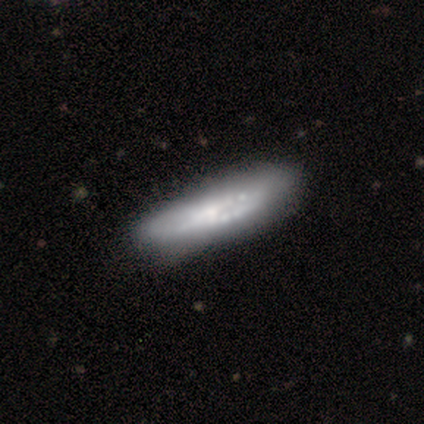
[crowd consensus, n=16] This is possibly a smooth galaxy (50%, tied with featured or disk). How rounded: clearly cigar-shaped (88%). Merging: possibly none (56%).